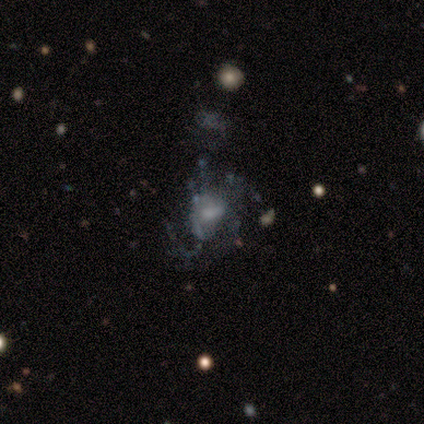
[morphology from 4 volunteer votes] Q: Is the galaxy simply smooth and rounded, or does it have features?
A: featured or disk — 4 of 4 (100%).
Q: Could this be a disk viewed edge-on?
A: no — 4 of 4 (100%).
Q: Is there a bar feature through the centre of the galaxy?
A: no — 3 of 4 (75%).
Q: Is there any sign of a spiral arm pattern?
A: yes — 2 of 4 (50%, tied with no).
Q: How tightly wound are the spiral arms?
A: medium — 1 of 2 (50%, tied with loose).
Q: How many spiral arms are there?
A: can't tell — 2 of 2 (100%).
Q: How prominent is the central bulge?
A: none — 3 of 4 (75%).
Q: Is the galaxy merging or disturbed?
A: major disturbance — 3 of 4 (75%).